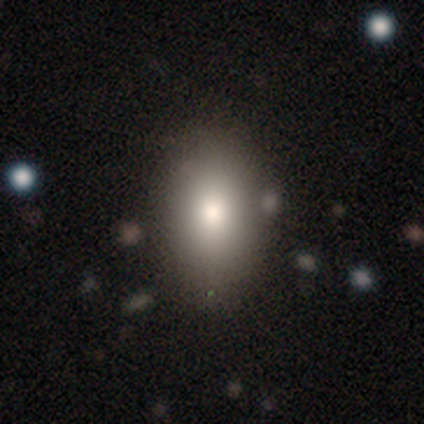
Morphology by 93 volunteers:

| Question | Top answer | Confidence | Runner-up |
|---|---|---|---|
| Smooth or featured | smooth | 74% | featured or disk (14%) |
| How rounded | in between | 86% | round (12%) |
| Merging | none | 74% | minor disturbance (18%) |